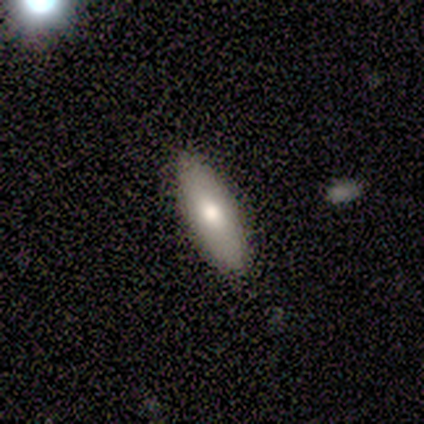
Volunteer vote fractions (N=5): This appears to be a smooth galaxy with no disk features (60%) that is in between round and cigar-shaped (100%). Merging: none (75%).